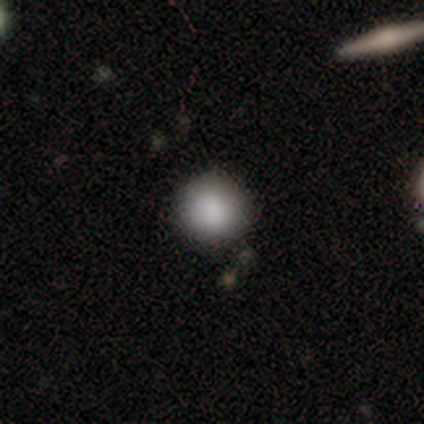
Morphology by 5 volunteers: type=smooth (100%); roundness=round (100%); merging=none (100%).